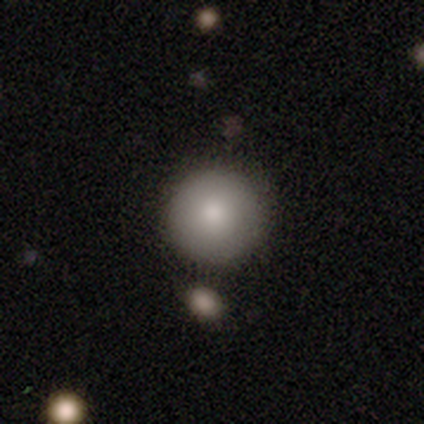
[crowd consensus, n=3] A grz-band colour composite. It shows a smooth galaxy with no disk features (67%) that is round (100%). Merging: none (50%, tied with minor disturbance).